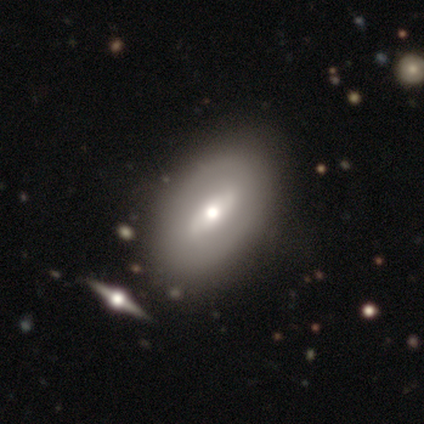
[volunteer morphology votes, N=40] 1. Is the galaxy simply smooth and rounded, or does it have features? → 60% featured or disk, 38% smooth, 2% star or artifact.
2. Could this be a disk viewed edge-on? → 96% no, 4% yes.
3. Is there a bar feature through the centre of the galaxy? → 52% weak, 26% no, 22% strong.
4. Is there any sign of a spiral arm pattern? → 61% no, 39% yes.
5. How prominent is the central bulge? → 74% moderate, 13% small, 9% large, 4% dominant, 0% none.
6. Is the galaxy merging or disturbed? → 62% none, 8% merger, 0% minor disturbance, 0% major disturbance.